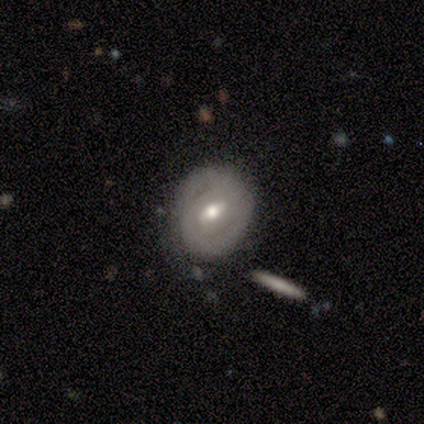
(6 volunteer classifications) A featured or disk galaxy (67%) with a weak bar (100%), 2 (100%) tight (100%) spiral arms (67%) and a moderate central bulge (67%).

Vote fractions:
- Smooth or featured? featured or disk: 67% / smooth: 17% / star or artifact: 17%
- Edge-on disk? no: 75% / yes: 25%
- Bar? weak: 100% / strong: 0% / no: 0%
- Spiral arms? yes: 67% / no: 33%
- Spiral winding? tight: 100% / medium: 0% / loose: 0%
- Spiral arm count? 2: 100% / 1: 0% / 3: 0% / 4: 0% / more than 4: 0% / can't tell: 0%
- Bulge size? moderate: 67% / small: 33% / dominant: 0% / large: 0% / none: 0%
- Merging? none: 80% / minor disturbance: 20% / major disturbance: 0% / merger: 0%